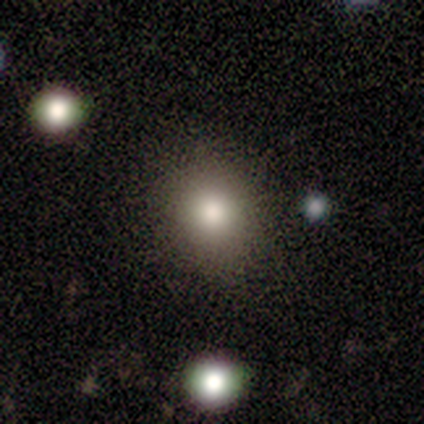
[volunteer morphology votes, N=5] Smooth or featured?
  - smooth: 60% *
  - star or artifact: 40%
  - featured or disk: 0%
How rounded?
  - round: 67% *
  - in between: 33%
  - cigar-shaped: 0%
Merging?
  - none: 100% *
  - minor disturbance: 0%
  - major disturbance: 0%
  - merger: 0%